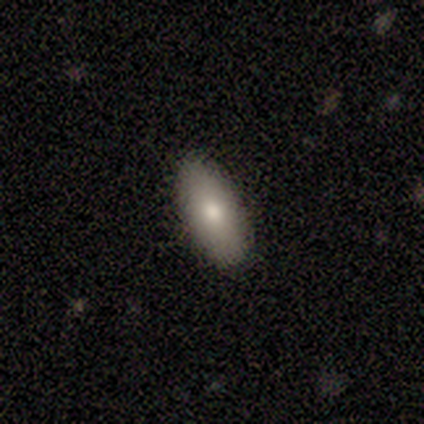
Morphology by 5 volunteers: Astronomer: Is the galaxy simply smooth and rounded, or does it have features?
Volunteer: smooth — 100%.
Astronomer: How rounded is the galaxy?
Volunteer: in between — 100%.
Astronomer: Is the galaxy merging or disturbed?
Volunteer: none — 80%.